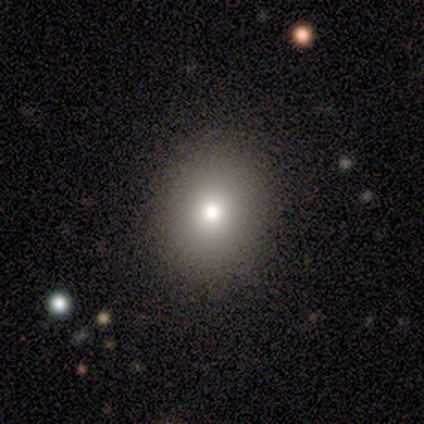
A smooth galaxy with no disk features (75%) that is round (67%).

Vote fractions:
- Smooth or featured? smooth: 75% / featured or disk: 25% / star or artifact: 0%
- How rounded? round: 67% / in between: 33% / cigar-shaped: 0%
- Merging? none: 50% (tied) / minor disturbance: 50% (tied) / major disturbance: 0% / merger: 0%